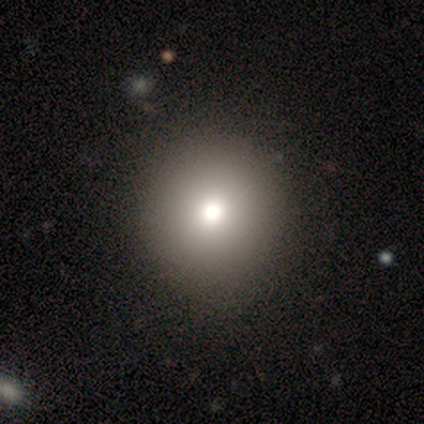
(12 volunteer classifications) smooth-or-featured: smooth: 83% | star or artifact: 17% | featured or disk: 0%
  how-rounded: round: 90% | cigar-shaped: 10% | in between: 0%
  merging: none: 80% | minor disturbance: 20% | major disturbance: 0% | merger: 0%